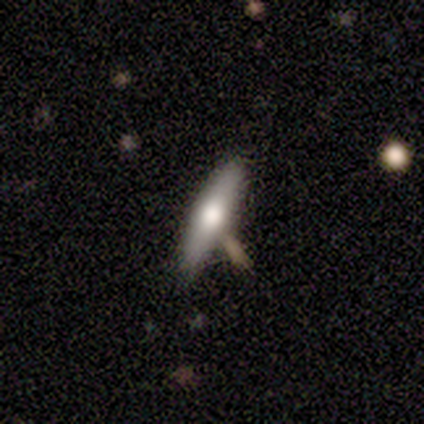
A smooth galaxy with no disk features (64%) that is cigar-shaped (89%).

Vote fractions:
- Smooth or featured? smooth: 64% / featured or disk: 36% / star or artifact: 0%
- How rounded? cigar-shaped: 89% / in between: 11% / round: 0%
- Merging? none: 86% / major disturbance: 7% / merger: 7% / minor disturbance: 0%